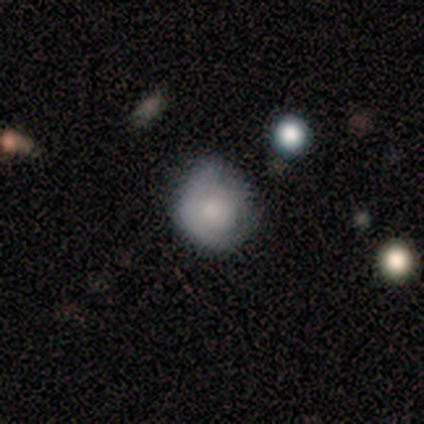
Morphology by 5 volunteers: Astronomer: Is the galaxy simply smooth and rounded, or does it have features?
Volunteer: smooth — 40%, tied with featured or disk at 40%.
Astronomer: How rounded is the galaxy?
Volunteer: round — 100%.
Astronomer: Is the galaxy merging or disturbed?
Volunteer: none — 75%.